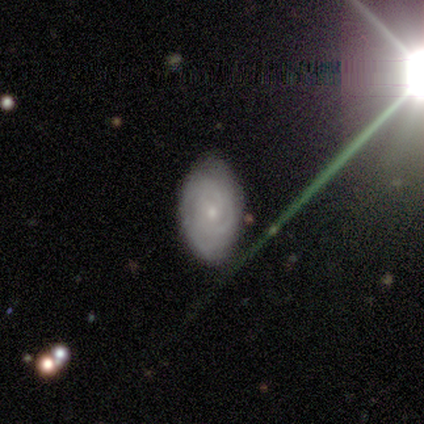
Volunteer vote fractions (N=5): Smooth or featured? 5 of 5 (100%) said featured or disk. Edge-on disk? 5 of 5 (100%) said no. Bar? 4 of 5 (80%) said no. Spiral arms? 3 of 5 (60%) said yes. Spiral winding? 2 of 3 (67%) said tight. Spiral arm count? 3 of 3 (100%) said can't tell. Bulge size? 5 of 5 (100%) said small. Merging? 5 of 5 (100%) said none.